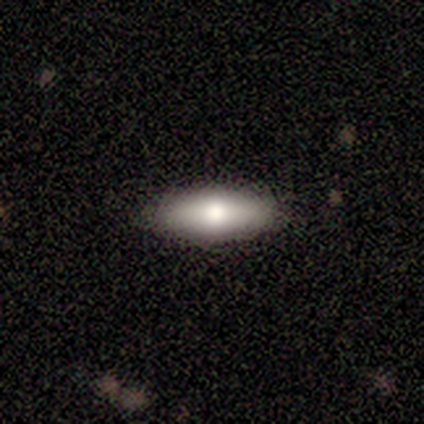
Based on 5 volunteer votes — Q: Smooth or featured?
A: smooth (60%); runner-up: featured or disk (40%)
Q: How rounded?
A: in between (100%)
Q: Merging?
A: none (100%)